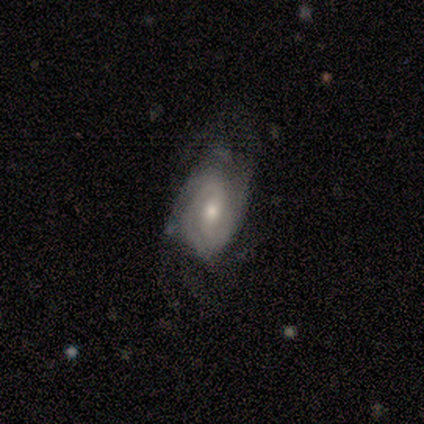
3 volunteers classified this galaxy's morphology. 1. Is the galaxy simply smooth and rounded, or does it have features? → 100% featured or disk, 0% smooth, 0% star or artifact.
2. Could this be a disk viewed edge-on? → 100% no, 0% yes.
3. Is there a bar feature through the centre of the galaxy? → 67% no, 33% weak, 0% strong.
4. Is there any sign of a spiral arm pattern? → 100% yes, 0% no.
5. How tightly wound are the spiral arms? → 67% medium, 33% loose, 0% tight.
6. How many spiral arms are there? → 100% 2, 0% 1, 0% 3, 0% 4, 0% more than 4, 0% can't tell.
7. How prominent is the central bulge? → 100% moderate, 0% dominant, 0% large, 0% small, 0% none.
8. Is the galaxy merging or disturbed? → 100% none, 0% minor disturbance, 0% major disturbance, 0% merger.